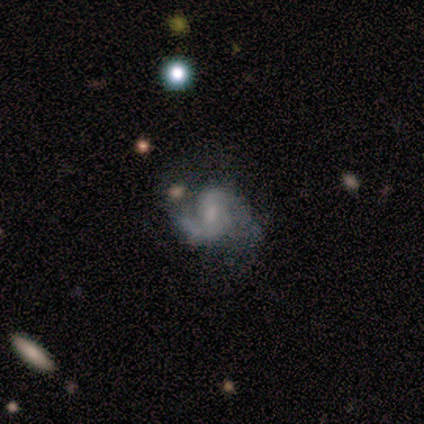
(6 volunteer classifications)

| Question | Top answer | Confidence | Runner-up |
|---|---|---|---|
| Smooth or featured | featured or disk | 100% | — |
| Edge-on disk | no | 100% | — |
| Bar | no | 67% | strong (17%) |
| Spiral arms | yes | 83% | no (17%) |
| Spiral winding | medium | 60% | tight (40%) |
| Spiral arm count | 2 | 60% | 1 (40%) |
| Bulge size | small | 83% | none (17%) |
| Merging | none | 50% | minor disturbance (17%) |